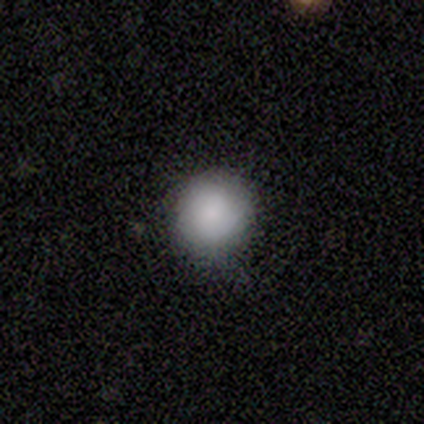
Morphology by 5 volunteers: type=smooth (80%); roundness=round (100%); merging=none (60%).